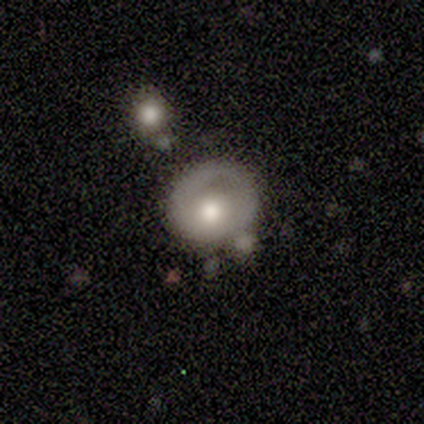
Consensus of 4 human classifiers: Smooth or featured?
  - smooth: 50% *
  - featured or disk: 25%
  - star or artifact: 25%
How rounded?
  - round: 50% * (tied)
  - in between: 50% * (tied)
  - cigar-shaped: 0%
Merging?
  - none: 100% *
  - minor disturbance: 0%
  - major disturbance: 0%
  - merger: 0%